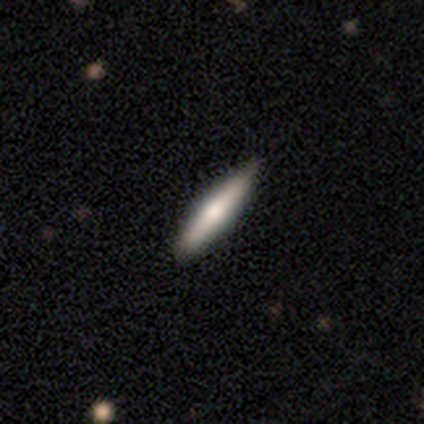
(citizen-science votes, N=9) A smooth galaxy with no disk features (78%) that is cigar-shaped (71%). Merging: none (78%).